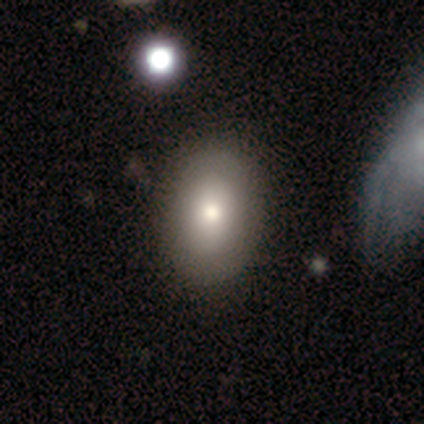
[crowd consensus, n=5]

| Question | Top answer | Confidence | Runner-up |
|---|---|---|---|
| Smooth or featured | smooth | 60% | featured or disk (40%) |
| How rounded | in between | 100% | — |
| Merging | none | 80% | minor disturbance (20%) |